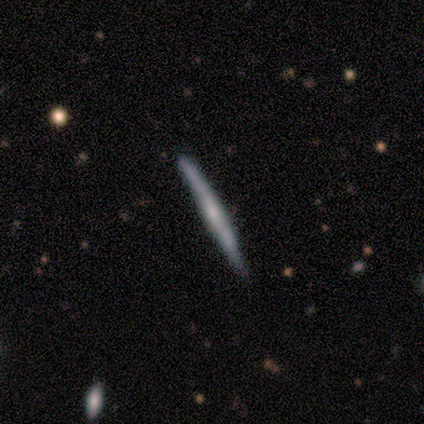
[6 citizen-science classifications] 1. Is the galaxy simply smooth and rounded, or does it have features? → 50% smooth (tied), 50% featured or disk (tied), 0% star or artifact.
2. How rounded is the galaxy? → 100% cigar-shaped, 0% round, 0% in between.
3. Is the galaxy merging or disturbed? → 83% none, 17% minor disturbance, 0% major disturbance, 0% merger.